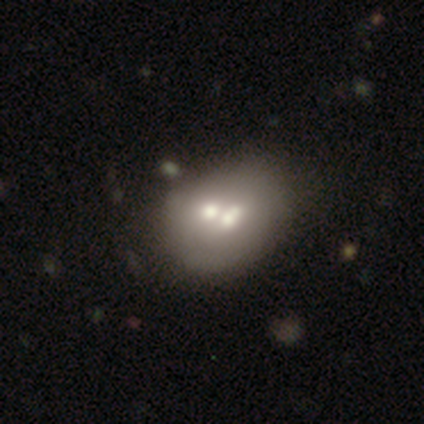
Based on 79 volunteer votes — Smooth or featured? 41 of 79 (52%) said smooth. How rounded? 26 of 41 (63%) said in between. Merging? 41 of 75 (55%) said merger.